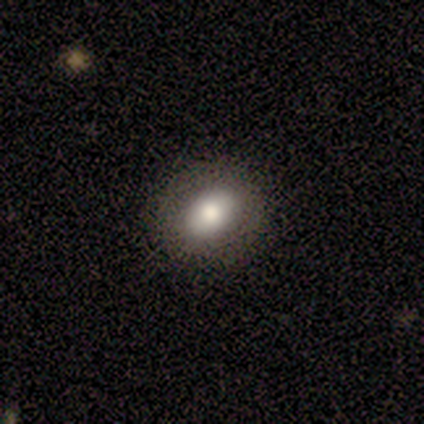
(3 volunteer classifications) Q: Smooth or featured?
A: smooth (100%)
Q: How rounded?
A: in between (67%); runner-up: cigar-shaped (33%)
Q: Merging?
A: none (100%)